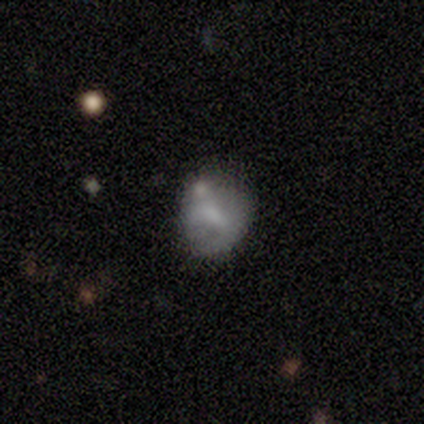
Smooth or featured?
  - smooth: 60% *
  - featured or disk: 40%
  - star or artifact: 0%
How rounded?
  - in between: 67% *
  - round: 33%
  - cigar-shaped: 0%
Merging?
  - minor disturbance: 60% *
  - none: 40%
  - major disturbance: 0%
  - merger: 0%